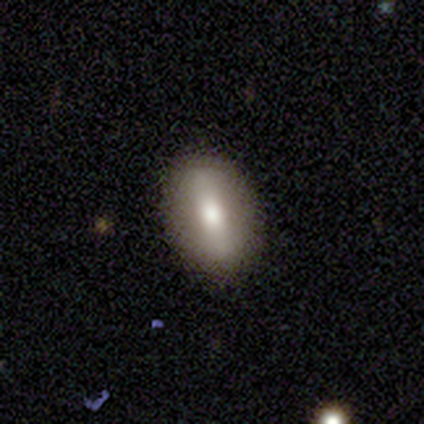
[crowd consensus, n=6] Overall: smooth (83%). How rounded: in between (60%; round 40%). Merging: none (83%).